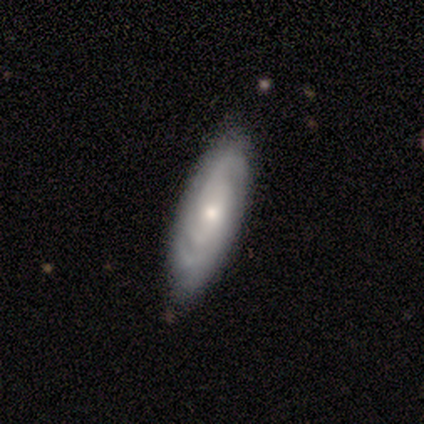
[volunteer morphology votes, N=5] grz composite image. It shows a featured or disk galaxy (80%) with a weak bar (50%, tied with no), 2 (50%, tied with can't tell) tight (50%, tied with medium) spiral arms (50%, tied with no) and a moderate central bulge (75%). Merging: none (100%).